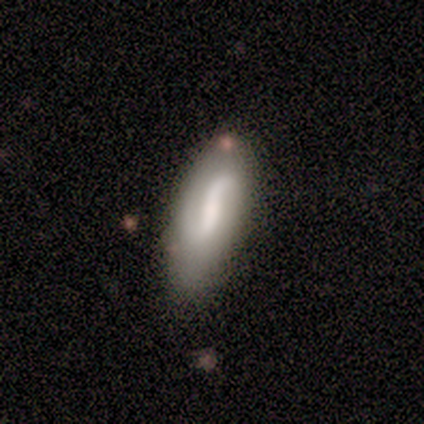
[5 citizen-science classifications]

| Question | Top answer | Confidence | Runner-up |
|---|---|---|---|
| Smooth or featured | featured or disk | 100% | — |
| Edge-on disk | no | 80% | yes (20%) |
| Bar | weak | 75% | no (25%) |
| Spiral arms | yes | 50% | tied: no (50%) |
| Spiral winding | tight | 50% | tied: loose (50%) |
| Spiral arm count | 2 | 100% | — |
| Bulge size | large | 25% | tied: moderate (25%), small (25%), none (25%) |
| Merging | none | 100% | — |